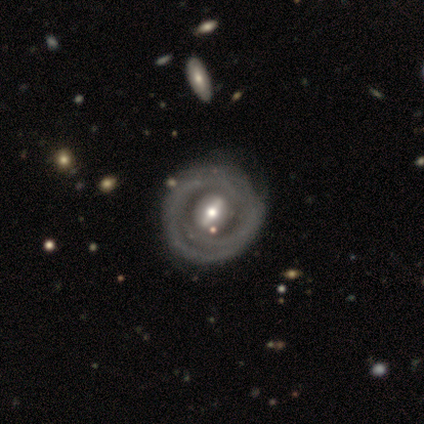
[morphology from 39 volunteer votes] Volunteers were most divided on "spiral arms": yes: 59%, no: 41%. More confident: edge-on disk — no (97%); smooth or featured — featured or disk (90%); spiral winding — tight (85%); bulge size — moderate (65%); merging — none (62%); spiral arm count — can't tell (55%); bar — strong (50%).